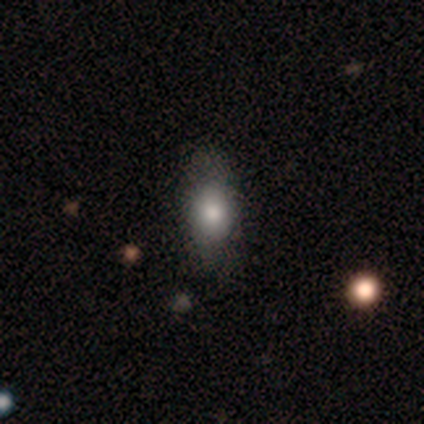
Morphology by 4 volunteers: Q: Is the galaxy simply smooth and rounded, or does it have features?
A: smooth — 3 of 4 (75%).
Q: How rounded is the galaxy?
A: in between — 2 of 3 (67%).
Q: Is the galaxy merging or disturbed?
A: none — 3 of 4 (75%).